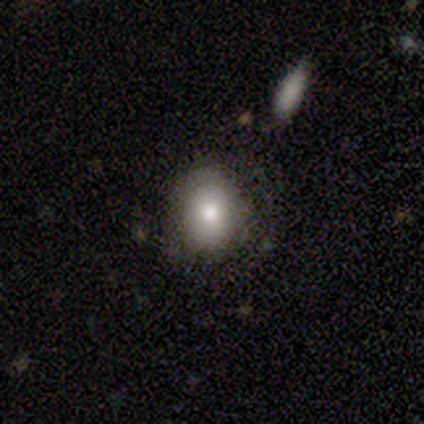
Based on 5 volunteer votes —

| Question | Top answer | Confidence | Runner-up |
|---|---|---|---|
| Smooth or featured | smooth | 60% | featured or disk (40%) |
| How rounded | round | 67% | in between (33%) |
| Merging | none | 80% | minor disturbance (20%) |